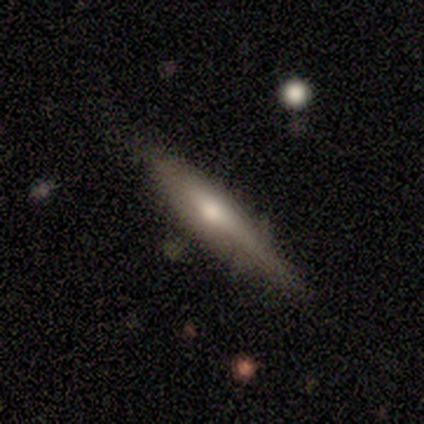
Q: Smooth or featured?
A: smooth (75%); runner-up: featured or disk (25%)
Q: How rounded?
A: cigar-shaped (100%)
Q: Merging?
A: none (75%); runner-up: minor disturbance (25%)